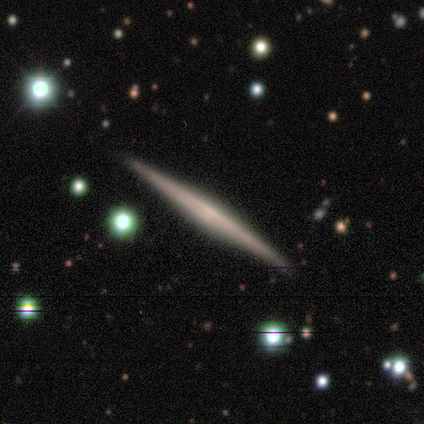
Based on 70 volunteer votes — smooth_or_featured: featured or disk (p=0.89) [alt: smooth p=0.10]
disk_edge_on: yes (p=1.00)
edge_on_bulge: none (p=0.61) [alt: rounded p=0.26]
merging: none (p=0.96) [alt: minor disturbance p=0.04]